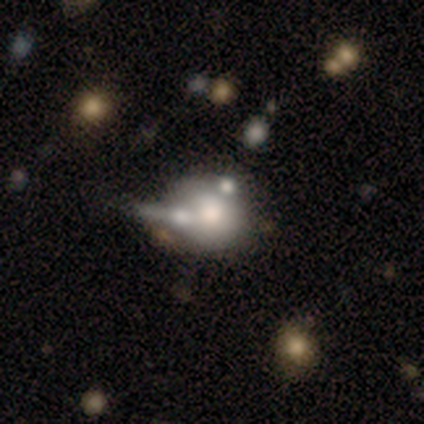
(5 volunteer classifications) smooth_or_featured: smooth (p=0.80) [alt: featured or disk p=0.20]
how_rounded: round (p=1.00)
merging: none (p=0.60) [alt: minor disturbance p=0.20]